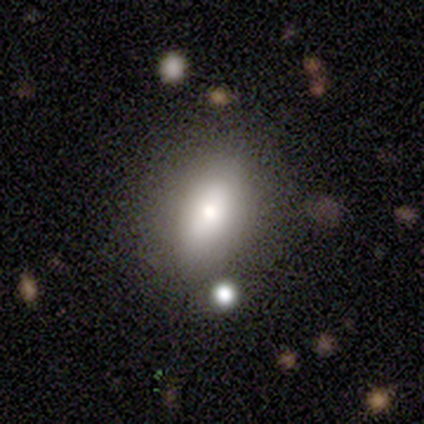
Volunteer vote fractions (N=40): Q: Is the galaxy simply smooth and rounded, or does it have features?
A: smooth — 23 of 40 (57%).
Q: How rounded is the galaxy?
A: in between — 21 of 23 (91%).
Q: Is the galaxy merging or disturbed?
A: none — 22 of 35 (63%).